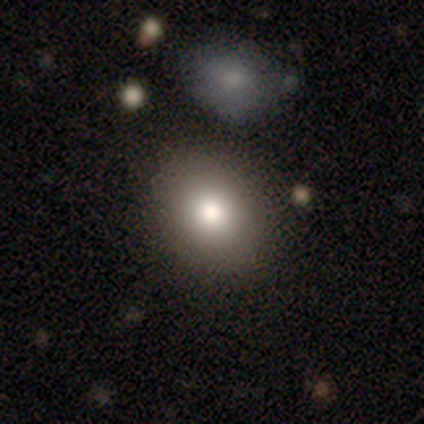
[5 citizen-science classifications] Volunteers were most divided on "how rounded": in between: 67%, round: 33%, cigar-shaped: 0%. More confident: merging — none (100%); smooth or featured — smooth (60%).